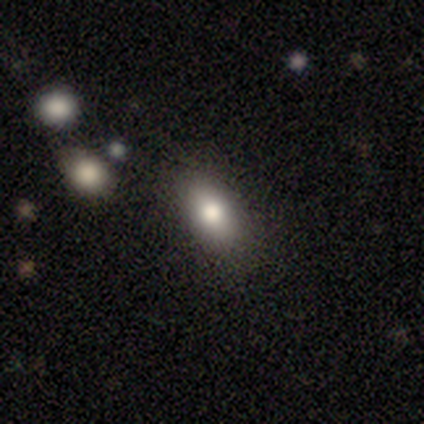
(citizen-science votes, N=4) A smooth galaxy with no disk features (75%) that is in between round and cigar-shaped (100%).

Vote fractions:
- Smooth or featured? smooth: 75% / featured or disk: 25% / star or artifact: 0%
- How rounded? in between: 100% / round: 0% / cigar-shaped: 0%
- Merging? none: 100% / minor disturbance: 0% / major disturbance: 0% / merger: 0%